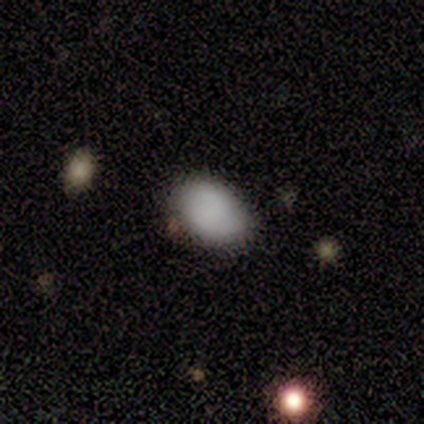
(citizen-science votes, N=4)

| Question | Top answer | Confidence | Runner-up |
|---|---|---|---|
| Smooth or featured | smooth | 100% | — |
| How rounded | in between | 100% | — |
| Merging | none | 50% | tied: minor disturbance (50%) |